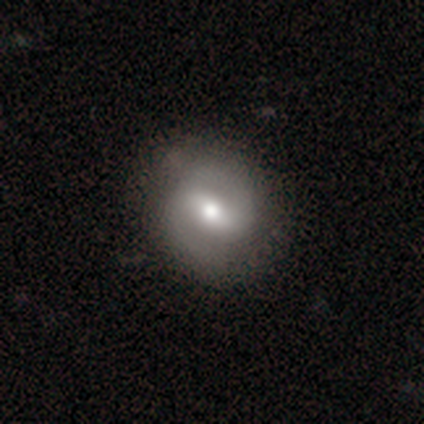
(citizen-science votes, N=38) Morphology: type=featured or disk (71%); edge-on=no (100%); bar=weak (41%); spiral arms=yes (93%); winding=medium (40%); arm count=2 (96%); bulge=moderate (67%); merging=none (83%).